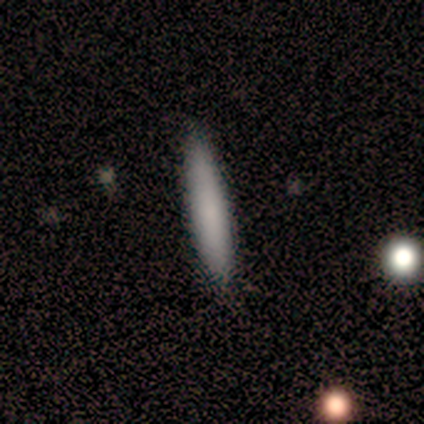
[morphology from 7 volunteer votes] Volunteers were most divided on "merging": none: 71%, minor disturbance: 14%, major disturbance: 14%, merger: 0%. More confident: how rounded — cigar-shaped (100%); smooth or featured — smooth (86%).